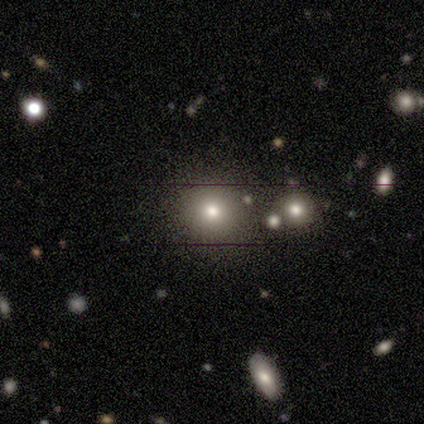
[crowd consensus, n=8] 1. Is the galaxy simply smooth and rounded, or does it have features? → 100% smooth, 0% featured or disk, 0% star or artifact.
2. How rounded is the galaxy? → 100% round, 0% in between, 0% cigar-shaped.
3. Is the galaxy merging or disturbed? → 88% none, 12% minor disturbance, 0% major disturbance, 0% merger.